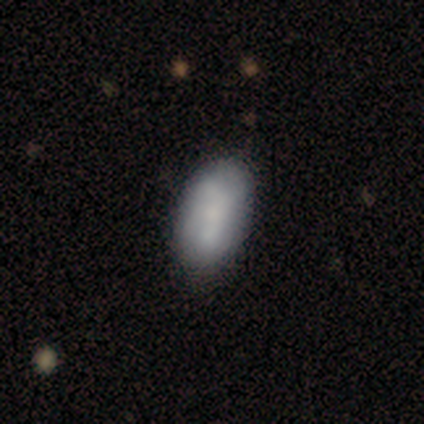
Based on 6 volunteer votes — This appears to be a smooth galaxy with no disk features (100%) that is in between round and cigar-shaped (83%). Merging: none (67%).